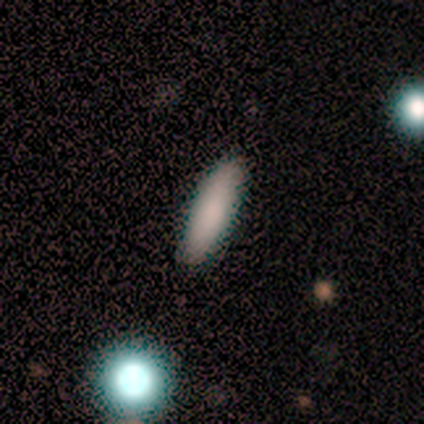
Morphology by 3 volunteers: Q: Smooth or featured?
A: smooth (100%)
Q: How rounded?
A: cigar-shaped (100%)
Q: Merging?
A: none (100%)